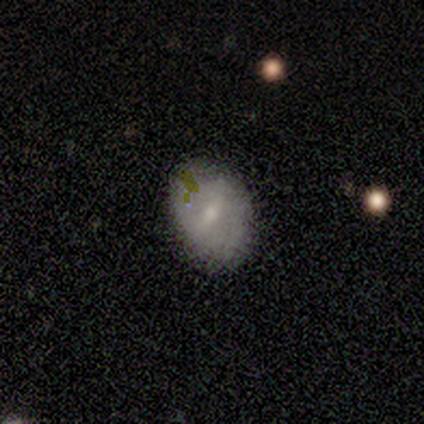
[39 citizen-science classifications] This appears to be a smooth galaxy with no disk features (59%) that is in between round and cigar-shaped (70%). Merging: none (76%).